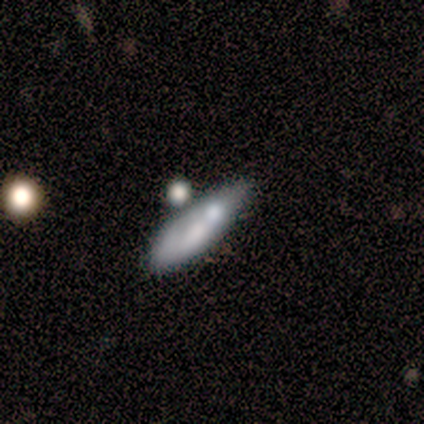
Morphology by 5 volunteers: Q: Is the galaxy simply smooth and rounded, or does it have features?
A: smooth — 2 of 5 (40%, tied with star or artifact).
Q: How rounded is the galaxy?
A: in between — 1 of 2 (50%, tied with cigar-shaped).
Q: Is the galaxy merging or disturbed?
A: none — 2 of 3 (67%).